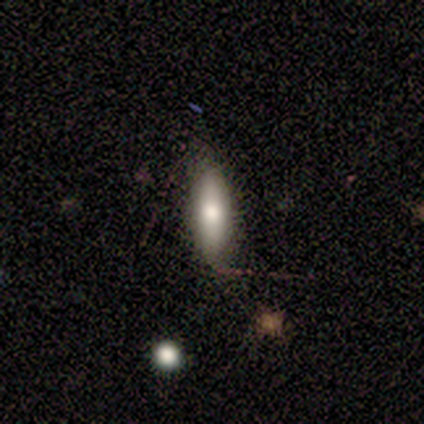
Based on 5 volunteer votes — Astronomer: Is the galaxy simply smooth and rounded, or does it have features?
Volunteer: smooth — 100%.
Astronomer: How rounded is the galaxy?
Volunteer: cigar-shaped — 60% (runner-up: in between, 40%).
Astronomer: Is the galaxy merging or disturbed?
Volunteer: none — 100%.